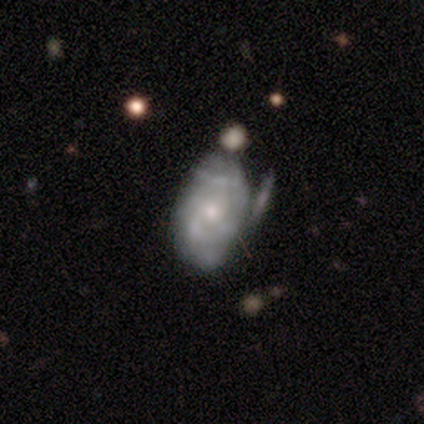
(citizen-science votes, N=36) smooth_or_featured: featured or disk (p=0.72) [alt: smooth p=0.28]
disk_edge_on: no (p=1.00)
bar: no (p=0.81) [alt: weak p=0.19]
has_spiral_arms: yes (p=0.54) [alt: no p=0.46]
spiral_winding: tight (p=0.71) [alt: medium p=0.21]
spiral_arm_count: can't tell (p=0.71) [alt: 2 p=0.14]
bulge_size: small (p=0.77) [alt: moderate p=0.12]
merging: minor disturbance (p=0.42) [alt: none p=0.33]